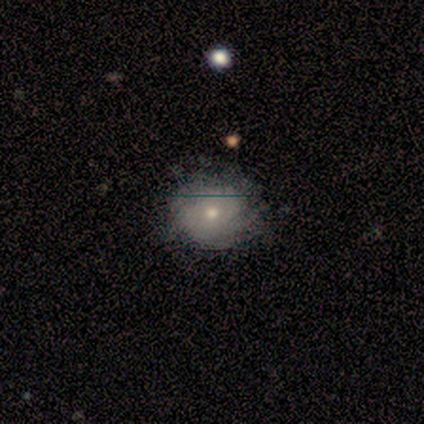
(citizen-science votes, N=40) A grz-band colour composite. It shows a smooth galaxy with no disk features (57%) that is round (74%). Merging: none (49%).